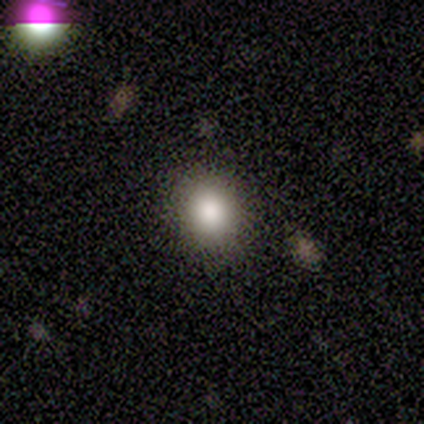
This appears to be a smooth galaxy with no disk features (80%) that is round (75%). Merging: none (100%).